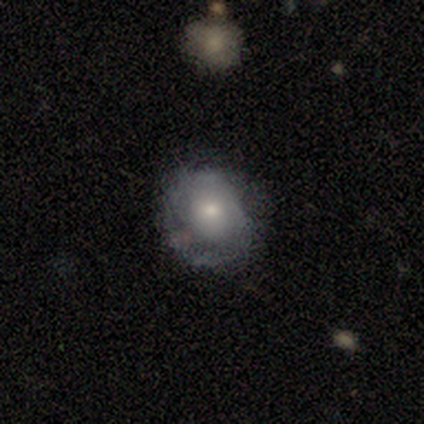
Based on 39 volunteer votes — smooth-or-featured: smooth: 51% | featured or disk: 36% | star or artifact: 13%
  how-rounded: round: 75% | in between: 25% | cigar-shaped: 0%
  merging: none: 65% | minor disturbance: 29% | major disturbance: 6% | merger: 0%